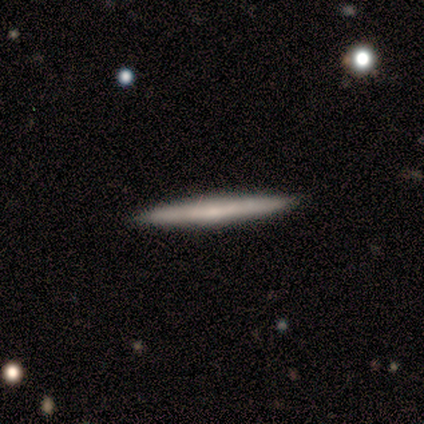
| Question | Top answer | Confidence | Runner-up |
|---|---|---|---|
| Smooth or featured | smooth | 50% | tied: featured or disk (50%) |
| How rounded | cigar-shaped | 100% | — |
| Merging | none | 100% | — |